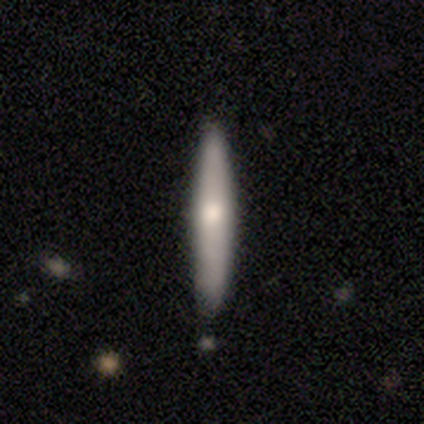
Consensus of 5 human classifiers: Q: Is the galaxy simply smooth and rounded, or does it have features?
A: smooth — 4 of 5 (80%).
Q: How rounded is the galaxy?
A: cigar-shaped — 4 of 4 (100%).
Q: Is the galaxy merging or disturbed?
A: none — 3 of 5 (60%).